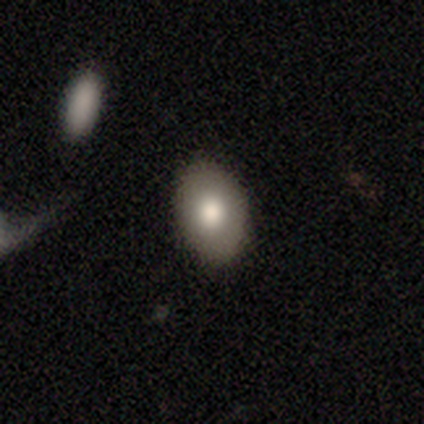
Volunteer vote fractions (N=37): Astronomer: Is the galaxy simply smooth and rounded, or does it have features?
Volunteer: smooth — 70%.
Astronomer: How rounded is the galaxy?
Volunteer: in between — 81%.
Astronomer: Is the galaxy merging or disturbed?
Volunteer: none — 85%.